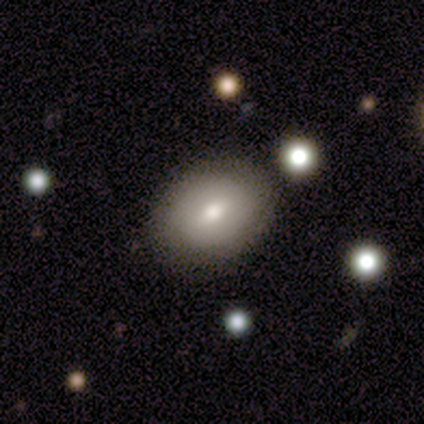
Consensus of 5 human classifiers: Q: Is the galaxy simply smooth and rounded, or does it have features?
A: smooth — 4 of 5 (80%).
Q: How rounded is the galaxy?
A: in between — 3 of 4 (75%).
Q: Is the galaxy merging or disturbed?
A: none — 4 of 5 (80%).